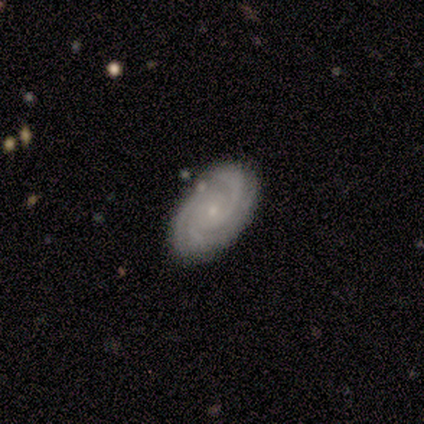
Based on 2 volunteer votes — Overall: featured or disk (100%). Edge-on disk: no (100%). Bar: no (100%). Spiral arms: yes (100%). Spiral arm count: 3 (100%). Spiral winding: tight (100%). Bulge size: small (100%). Merging: none (100%).